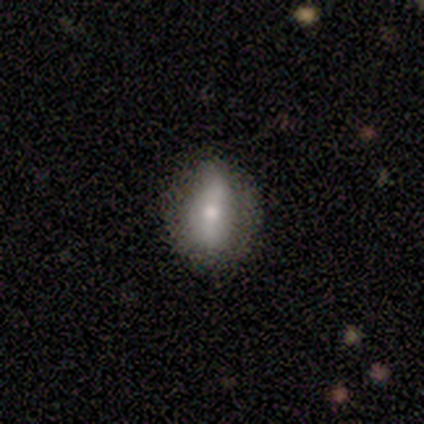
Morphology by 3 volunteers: type=smooth (67%); roundness=in between (100%); merging=none (33%, tied with minor disturbance and major disturbance).